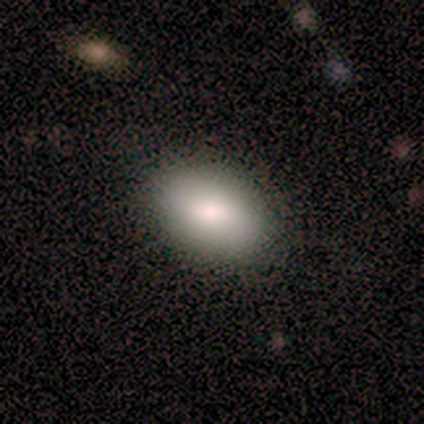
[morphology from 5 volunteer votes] smooth_or_featured: smooth (p=1.00)
how_rounded: in between (p=0.60) [alt: round p=0.40]
merging: none (p=0.60) [alt: minor disturbance p=0.40]